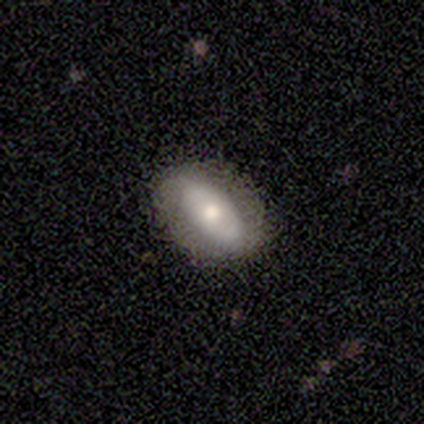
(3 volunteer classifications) A featured or disk galaxy (67%) with a weak bar (50%, tied with no), no spiral arms (100%) and a moderate central bulge (50%, tied with small).

Vote fractions:
- Smooth or featured? featured or disk: 67% / smooth: 33% / star or artifact: 0%
- Edge-on disk? no: 100% / yes: 0%
- Bar? weak: 50% (tied) / no: 50% (tied) / strong: 0%
- Spiral arms? no: 100% / yes: 0%
- Bulge size? moderate: 50% (tied) / small: 50% (tied) / dominant: 0% / large: 0% / none: 0%
- Merging? none: 100% / minor disturbance: 0% / major disturbance: 0% / merger: 0%